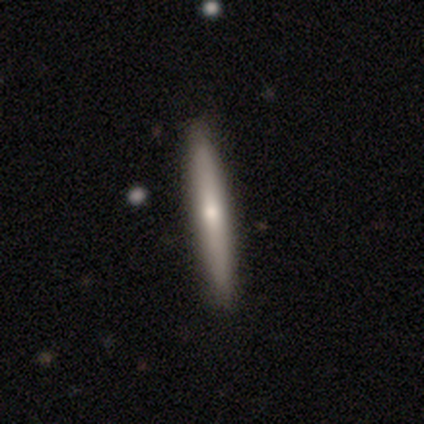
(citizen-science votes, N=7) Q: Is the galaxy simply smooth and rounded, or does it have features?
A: smooth — 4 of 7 (57%).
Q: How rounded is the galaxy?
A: cigar-shaped — 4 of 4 (100%).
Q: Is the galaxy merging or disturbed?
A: none — 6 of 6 (100%).